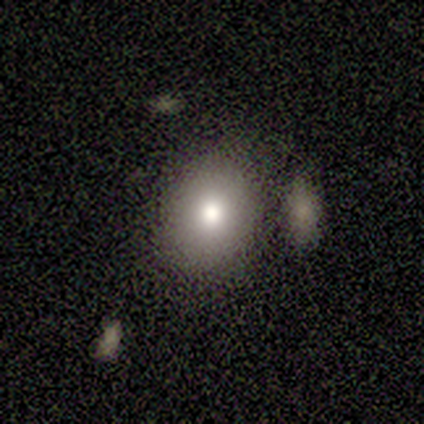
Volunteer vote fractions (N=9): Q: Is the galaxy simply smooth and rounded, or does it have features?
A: smooth — 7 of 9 (78%).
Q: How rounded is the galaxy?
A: in between — 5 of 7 (71%).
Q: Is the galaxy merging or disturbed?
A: none — 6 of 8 (75%).